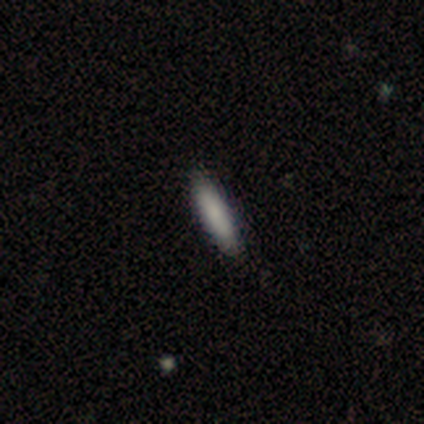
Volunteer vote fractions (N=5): Overall: smooth (100%). How rounded: cigar-shaped (60%; in between 40%). Merging: none (100%).